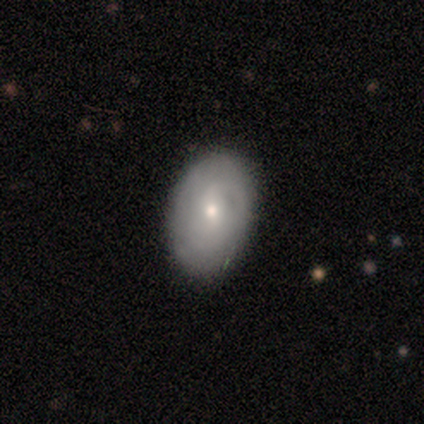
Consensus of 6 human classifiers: Smooth or featured: featured or disk — 67% (smooth — 17%)
Edge-on disk: no — 100%
Bar: no — 75% (weak — 25%)
Spiral arms: yes — 50% (tied with no — 50%)
Spiral winding: tight — 100%
Spiral arm count: 1 — 50% (tied with can't tell — 50%)
Bulge size: moderate — 50% (tied with small — 50%)
Merging: none — 80% (minor disturbance — 20%)